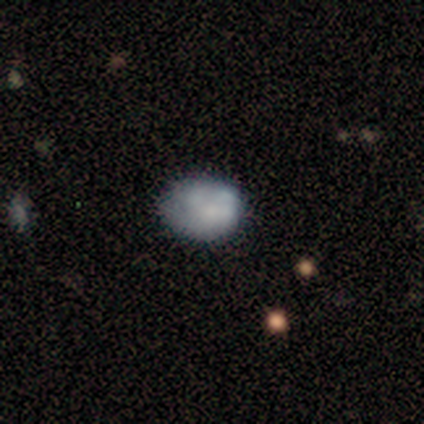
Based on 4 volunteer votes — This appears to be a smooth galaxy with no disk features (75%) that is in between round and cigar-shaped (67%). Merging: none (75%).